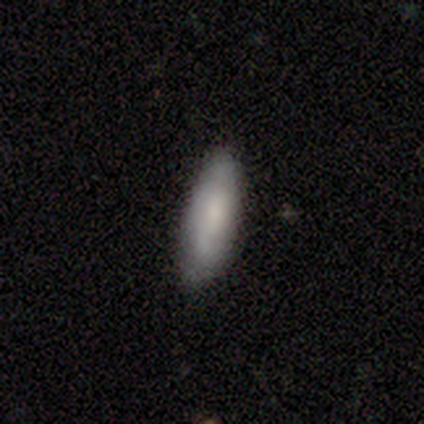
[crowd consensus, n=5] A smooth galaxy with no disk features (100%) that is in between round and cigar-shaped (60%). Merging: none (80%).